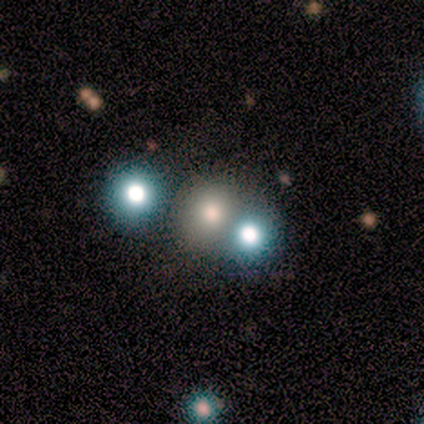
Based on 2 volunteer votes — This is clearly a star or artifact rather than a galaxy (100%).